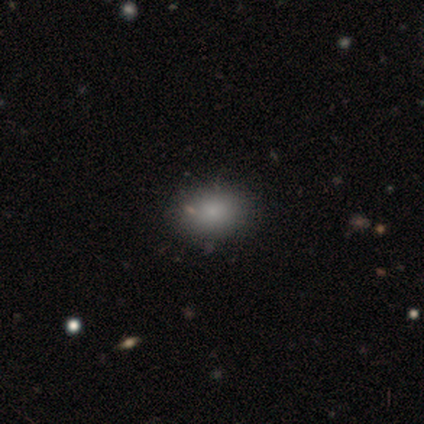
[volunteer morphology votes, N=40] Q: Smooth or featured?
A: smooth (88%); runner-up: featured or disk (8%)
Q: How rounded?
A: in between (71%); runner-up: round (29%)
Q: Merging?
A: none (66%); runner-up: minor disturbance (11%)